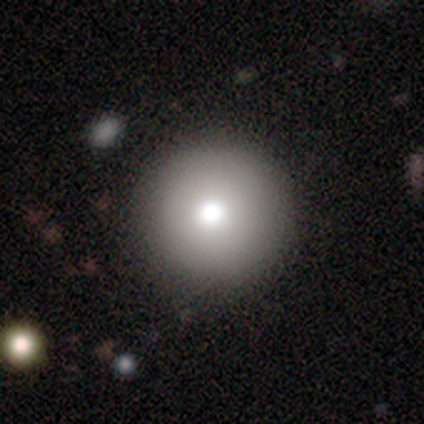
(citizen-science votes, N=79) Smooth or featured? smooth (77%)
How rounded? round (98%)
Merging? none (60%)